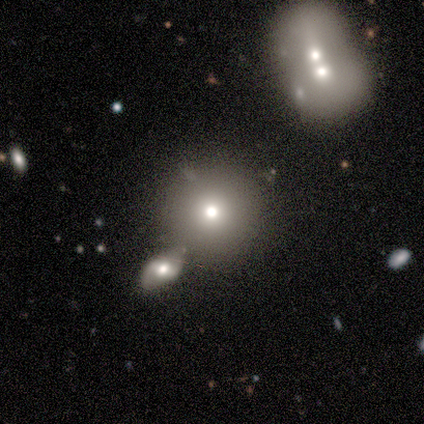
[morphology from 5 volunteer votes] Smooth or featured? 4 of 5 (80%) said smooth. How rounded? 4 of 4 (100%) said round. Merging? 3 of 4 (75%) said none.